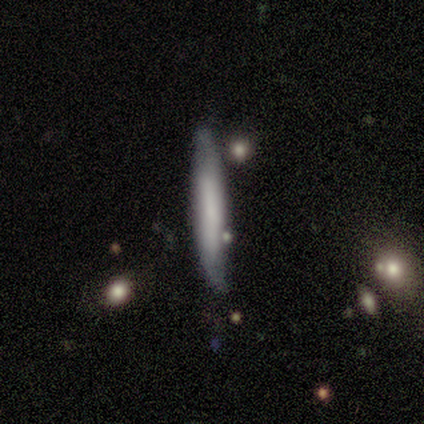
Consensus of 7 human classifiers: smooth_or_featured: smooth (p=0.71) [alt: featured or disk p=0.29]
how_rounded: cigar-shaped (p=0.80) [alt: in between p=0.20]
merging: none (p=1.00)